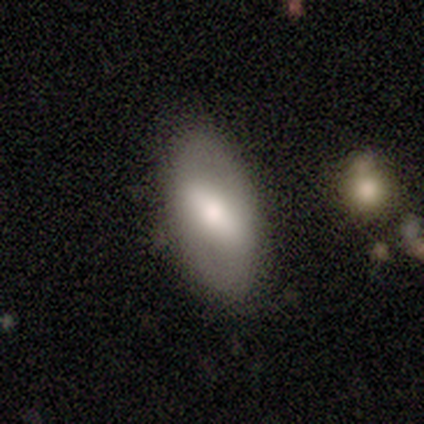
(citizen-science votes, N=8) A featured or disk galaxy (62%) with a weak bar (60%), tight (67%) spiral arms (60%) and a moderate central bulge (60%).

Vote fractions:
- Smooth or featured? featured or disk: 62% / smooth: 38% / star or artifact: 0%
- Edge-on disk? no: 100% / yes: 0%
- Bar? weak: 60% / strong: 20% / no: 20%
- Spiral arms? yes: 60% / no: 40%
- Spiral winding? tight: 67% / loose: 33% / medium: 0%
- Spiral arm count? can't tell: 67% / 2: 33% / 1: 0% / 3: 0% / 4: 0% / more than 4: 0%
- Bulge size? moderate: 60% / large: 40% / dominant: 0% / small: 0% / none: 0%
- Merging? none: 100% / minor disturbance: 0% / major disturbance: 0% / merger: 0%